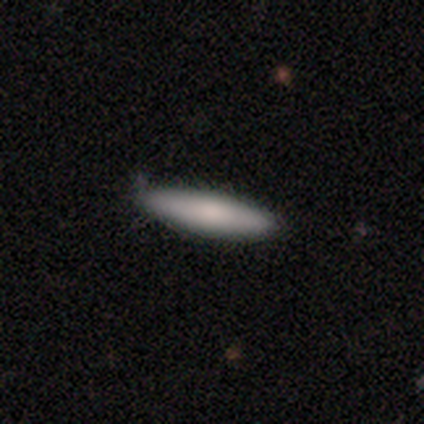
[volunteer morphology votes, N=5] Volunteers were most divided on "merging": none: 80%, minor disturbance: 20%, major disturbance: 0%, merger: 0%. More confident: smooth or featured — smooth (100%); how rounded — cigar-shaped (100%).